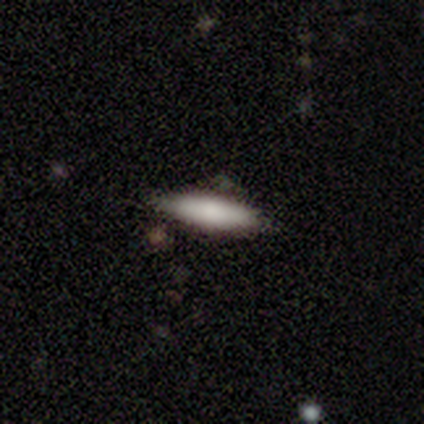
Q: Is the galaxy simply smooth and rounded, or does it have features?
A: smooth — 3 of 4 (75%).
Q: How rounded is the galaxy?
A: cigar-shaped — 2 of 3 (67%).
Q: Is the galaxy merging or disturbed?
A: none — 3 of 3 (100%).